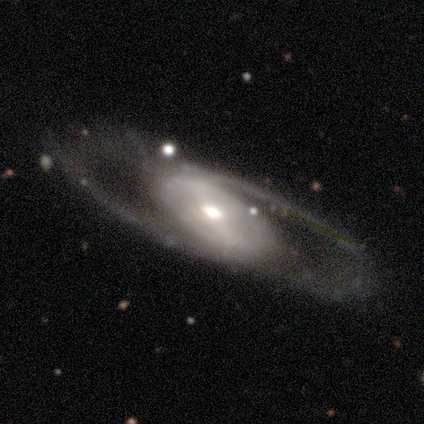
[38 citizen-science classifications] smooth-or-featured: featured or disk: 92% | smooth: 5% | star or artifact: 3%
  disk-edge-on: no: 80% | yes: 20%
    bar: weak: 43% | strong: 39% | no: 18%
    has-spiral-arms: yes: 82% | no: 18%
      spiral-winding: loose: 70% | medium: 26% | tight: 4%
      spiral-arm-count: 2: 87% | can't tell: 9% | 4: 4% | 1: 0% | 3: 0% | more than 4: 0%
    bulge-size: moderate: 57% | large: 21% | small: 14% | dominant: 7% | none: 0%
  merging: none: 62% | major disturbance: 19% | minor disturbance: 14% | merger: 5%